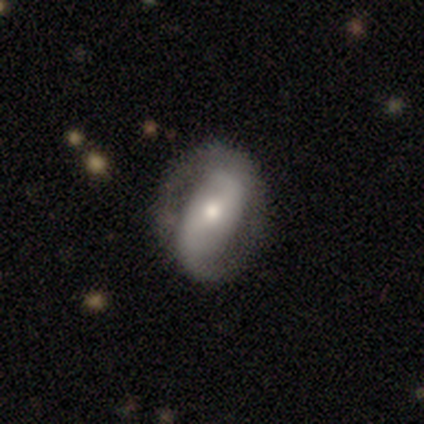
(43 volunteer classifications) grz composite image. It shows a featured or disk galaxy (84%) with a strong bar (39%), 2 (83%) loose (38%) spiral arms (81%) and a moderate central bulge (47%). Merging: none (81%).